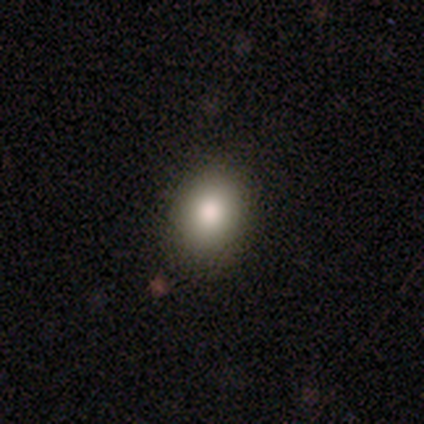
Smooth or featured?
  - smooth: 100% *
  - featured or disk: 0%
  - star or artifact: 0%
How rounded?
  - in between: 80% *
  - round: 20%
  - cigar-shaped: 0%
Merging?
  - none: 60% *
  - minor disturbance: 40%
  - major disturbance: 0%
  - merger: 0%